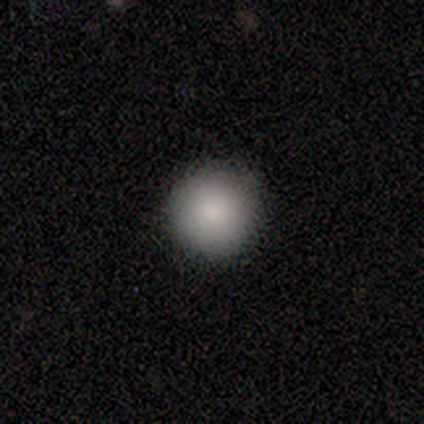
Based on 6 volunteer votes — This appears to be a smooth galaxy with no disk features (83%) that is round (100%). Merging: none (83%).